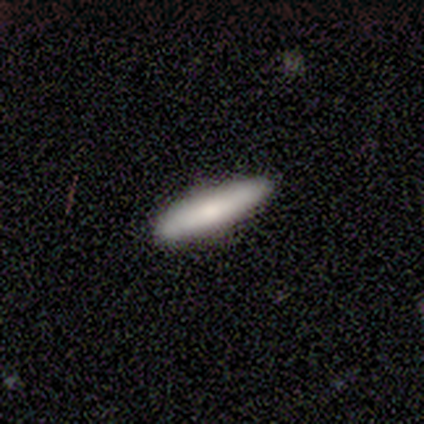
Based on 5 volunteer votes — This appears to be a smooth galaxy with no disk features (100%) that is cigar-shaped (80%). Merging: none (100%).